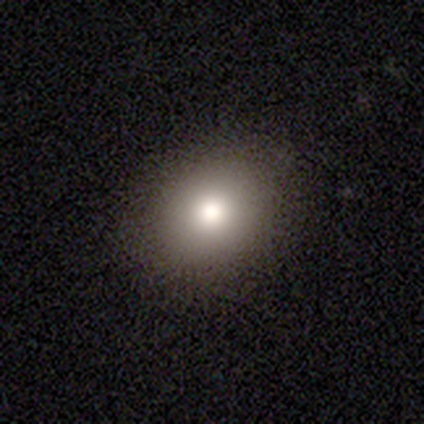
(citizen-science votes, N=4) Smooth or featured? 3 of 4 (75%) said smooth. How rounded? 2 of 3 (67%) said round. Merging? 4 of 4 (100%) said none.